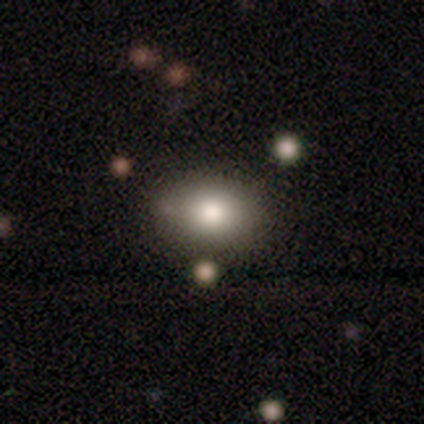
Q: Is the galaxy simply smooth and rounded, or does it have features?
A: smooth — 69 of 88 (78%).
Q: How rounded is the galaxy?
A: in between — 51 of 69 (74%).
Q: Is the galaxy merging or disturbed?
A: none — 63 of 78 (81%).